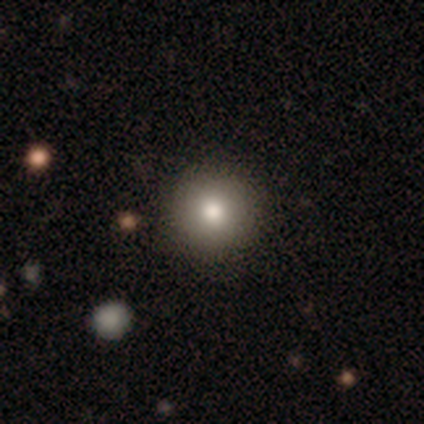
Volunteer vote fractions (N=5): Smooth or featured?
  - smooth: 80% *
  - featured or disk: 20%
  - star or artifact: 0%
How rounded?
  - round: 100% *
  - in between: 0%
  - cigar-shaped: 0%
Merging?
  - none: 100% *
  - minor disturbance: 0%
  - major disturbance: 0%
  - merger: 0%